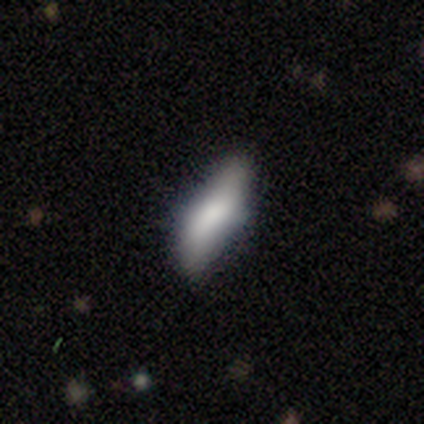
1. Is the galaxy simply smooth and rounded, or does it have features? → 68% smooth, 20% featured or disk, 12% star or artifact.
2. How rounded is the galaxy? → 50% in between, 46% cigar-shaped, 4% round.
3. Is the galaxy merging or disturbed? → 64% none, 28% minor disturbance, 6% major disturbance, 3% merger.